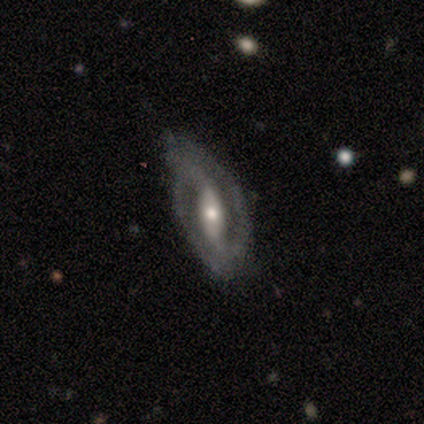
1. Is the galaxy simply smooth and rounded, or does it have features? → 100% featured or disk, 0% smooth, 0% star or artifact.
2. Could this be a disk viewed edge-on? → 80% no, 20% yes.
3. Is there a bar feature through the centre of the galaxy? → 75% strong, 25% no, 0% weak.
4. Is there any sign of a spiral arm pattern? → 50% yes (tied), 50% no (tied).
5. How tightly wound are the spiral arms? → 50% tight (tied), 50% medium (tied), 0% loose.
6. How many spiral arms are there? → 100% 2, 0% 1, 0% 3, 0% 4, 0% more than 4, 0% can't tell.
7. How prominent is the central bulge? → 75% moderate, 25% small, 0% dominant, 0% large, 0% none.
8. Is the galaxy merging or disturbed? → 60% none, 40% minor disturbance, 0% major disturbance, 0% merger.